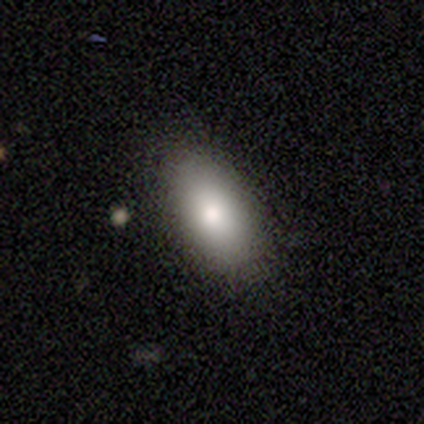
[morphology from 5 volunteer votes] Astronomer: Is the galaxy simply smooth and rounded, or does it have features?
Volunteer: smooth — 80%.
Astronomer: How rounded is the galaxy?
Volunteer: in between — 100%.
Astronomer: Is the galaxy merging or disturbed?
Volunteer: none — 100%.